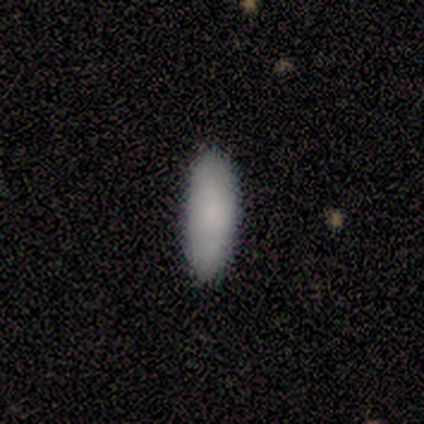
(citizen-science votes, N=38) Volunteers were most divided on "how rounded": in between: 78%, cigar-shaped: 22%, round: 0%. More confident: smooth or featured — smooth (95%); merging — none (92%).